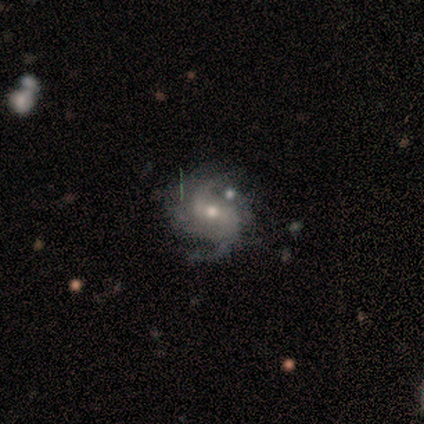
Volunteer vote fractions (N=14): featured or disk 71%, star or artifact 21%, smooth 7%. Down the decision tree: edge-on disk — no (100%); bar — weak (50%, tied with no); spiral arms — yes (90%); spiral arm count — 2 (89%); spiral winding — medium (67%); bulge size — moderate (60%); merging — none (73%).